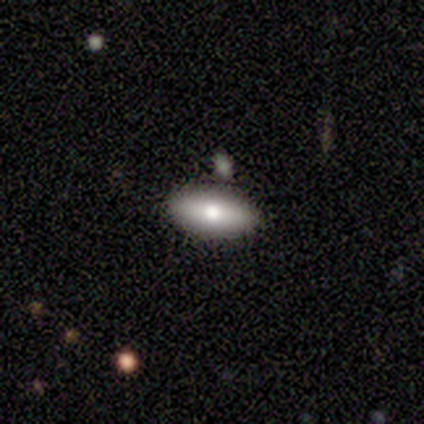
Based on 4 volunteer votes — This is likely a smooth galaxy (75%). How rounded: likely in between (67%). Merging: likely none (75%).